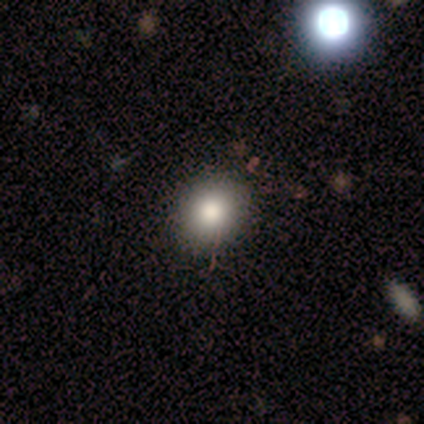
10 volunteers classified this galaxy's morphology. Overall: smooth (70%; star or artifact 30%). How rounded: round (86%). Merging: none (71%).